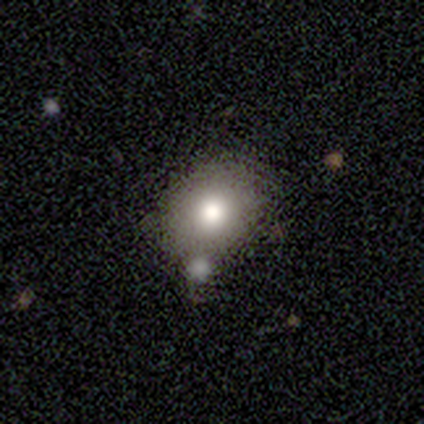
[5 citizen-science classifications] Smooth or featured? 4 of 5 (80%) said smooth. How rounded? 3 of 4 (75%) said round. Merging? 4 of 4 (100%) said none.